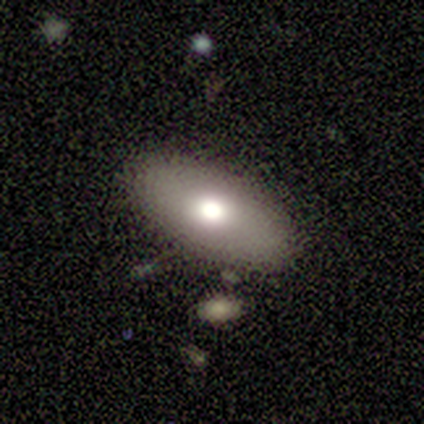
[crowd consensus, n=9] A smooth galaxy with no disk features (56%) that is in between round and cigar-shaped (60%).

Vote fractions:
- Smooth or featured? smooth: 56% / featured or disk: 44% / star or artifact: 0%
- How rounded? in between: 60% / round: 20% / cigar-shaped: 20%
- Merging? none: 56% / minor disturbance: 33% / merger: 11% / major disturbance: 0%